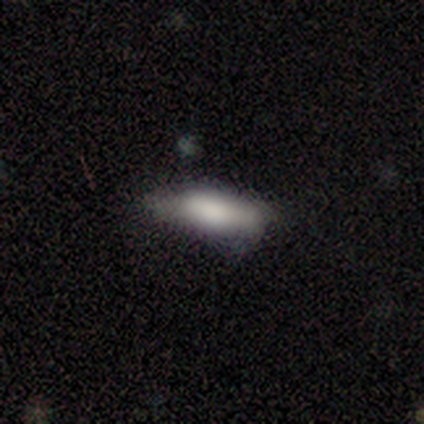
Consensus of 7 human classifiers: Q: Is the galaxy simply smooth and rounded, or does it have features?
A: smooth — 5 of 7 (71%).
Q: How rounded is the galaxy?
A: in between — 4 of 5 (80%).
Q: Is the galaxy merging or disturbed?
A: none — 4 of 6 (67%).